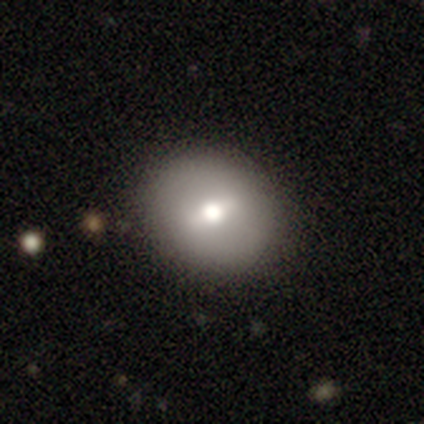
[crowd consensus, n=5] smooth-or-featured: smooth: 60% | featured or disk: 40% | star or artifact: 0%
  how-rounded: round: 67% | in between: 33% | cigar-shaped: 0%
  merging: none: 80% | minor disturbance: 20% | major disturbance: 0% | merger: 0%